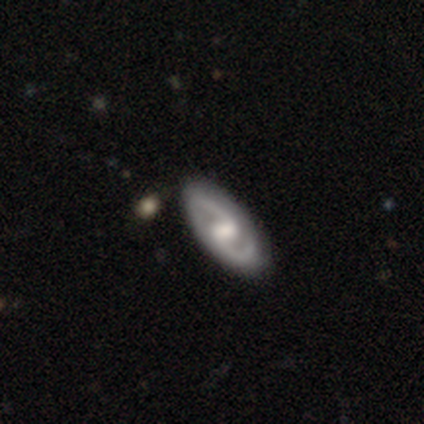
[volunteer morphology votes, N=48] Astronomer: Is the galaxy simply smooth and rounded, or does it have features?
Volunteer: featured or disk — 88%.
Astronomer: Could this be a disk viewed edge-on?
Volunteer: no — 93%.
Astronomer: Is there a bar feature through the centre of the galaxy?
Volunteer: weak — 49% (runner-up: strong, 31%).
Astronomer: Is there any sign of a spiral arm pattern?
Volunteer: yes — 92%.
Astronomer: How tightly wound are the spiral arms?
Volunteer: medium — 61%.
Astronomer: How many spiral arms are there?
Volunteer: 2 — 97%.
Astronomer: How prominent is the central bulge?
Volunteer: moderate — 59%.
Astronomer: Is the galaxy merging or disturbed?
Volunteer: none — 81%.